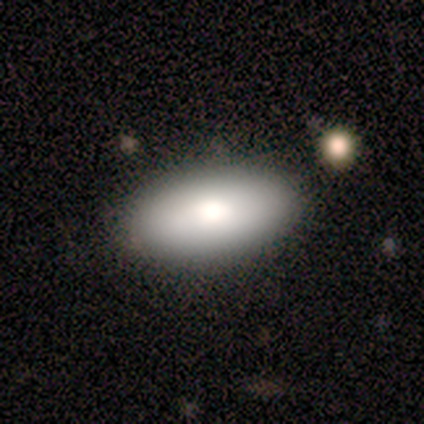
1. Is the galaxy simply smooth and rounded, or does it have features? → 100% smooth, 0% featured or disk, 0% star or artifact.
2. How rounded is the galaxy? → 100% in between, 0% round, 0% cigar-shaped.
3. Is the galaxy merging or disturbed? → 80% none, 20% minor disturbance, 0% major disturbance, 0% merger.